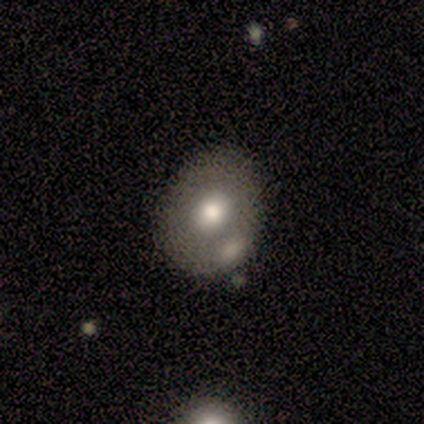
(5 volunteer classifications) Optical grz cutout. It shows a smooth galaxy with no disk features (80%) that is round (75%). Merging: none (100%).